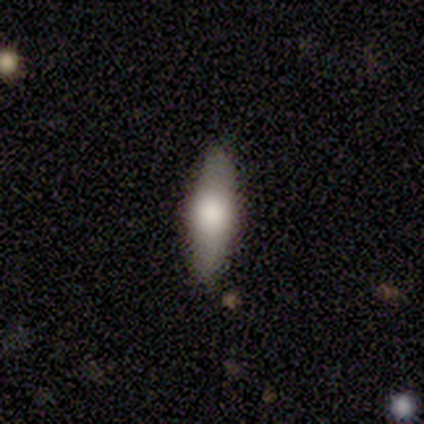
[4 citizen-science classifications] Smooth or featured?
  - smooth: 75% *
  - featured or disk: 25%
  - star or artifact: 0%
How rounded?
  - in between: 67% *
  - cigar-shaped: 33%
  - round: 0%
Merging?
  - none: 100% *
  - minor disturbance: 0%
  - major disturbance: 0%
  - merger: 0%